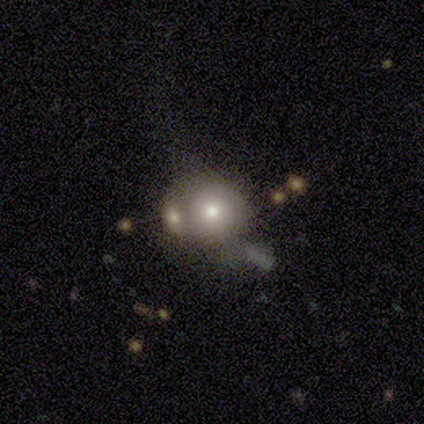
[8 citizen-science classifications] Smooth or featured: smooth — 38% (tied with featured or disk — 38%)
How rounded: round — 100%
Merging: merger — 50% (none — 33%)